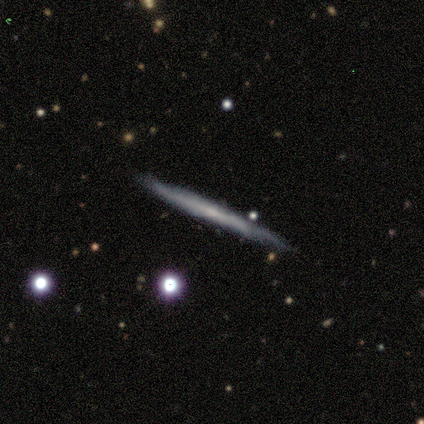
This appears to be a smooth galaxy with no disk features (50%, tied with featured or disk) that is cigar-shaped (100%). Merging: none (83%).